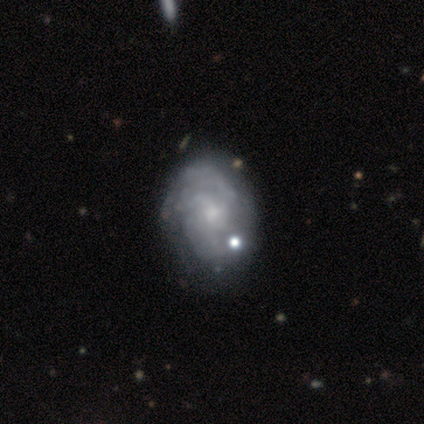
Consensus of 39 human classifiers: Smooth or featured? featured or disk (85%)
Edge-on disk? no (100%)
Bar? no (76%)
Spiral arms? yes (82%)
Spiral winding? tight (37%)
Spiral arm count? 3 (52%)
Bulge size? small (58%)
Merging? none (37%)